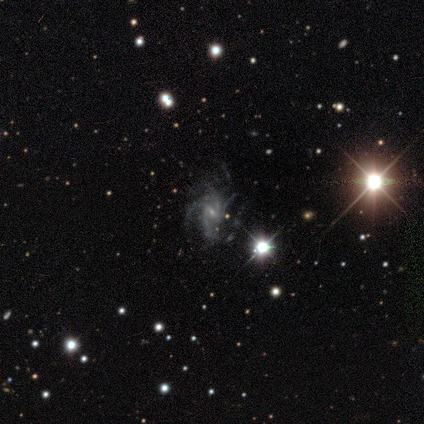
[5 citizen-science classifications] Smooth or featured: featured or disk — 100%
Edge-on disk: no — 100%
Bar: weak — 60% (no — 40%)
Spiral arms: yes — 80% (no — 20%)
Spiral winding: tight — 50% (medium — 25%)
Spiral arm count: can't tell — 50% (3 — 25%)
Bulge size: small — 80% (moderate — 20%)
Merging: minor disturbance — 60% (none — 40%)